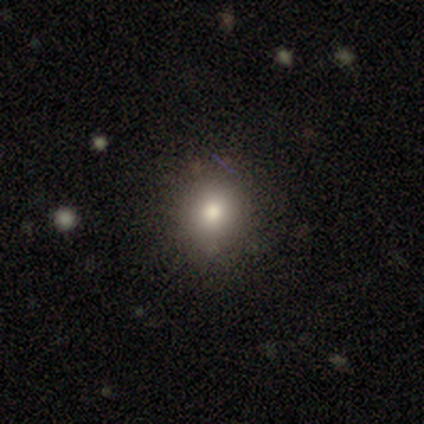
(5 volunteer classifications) smooth-or-featured: star or artifact: 60% | smooth: 40% | featured or disk: 0%